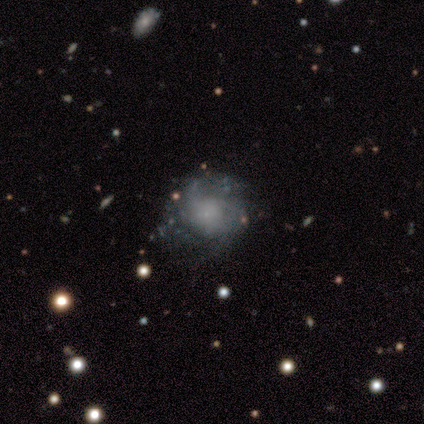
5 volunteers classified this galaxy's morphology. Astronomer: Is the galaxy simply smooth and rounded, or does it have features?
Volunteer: featured or disk — 80%.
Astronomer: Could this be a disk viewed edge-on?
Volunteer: no — 100%.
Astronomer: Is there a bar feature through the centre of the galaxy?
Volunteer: no — 100%.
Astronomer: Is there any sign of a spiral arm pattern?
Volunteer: yes — 75%.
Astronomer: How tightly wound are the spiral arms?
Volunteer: tight — 67%.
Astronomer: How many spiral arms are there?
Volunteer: can't tell — 67%.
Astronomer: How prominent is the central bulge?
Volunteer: none — 50%.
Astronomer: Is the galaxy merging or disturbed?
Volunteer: none — 80%.